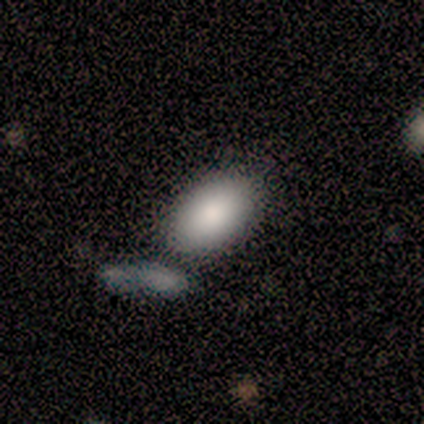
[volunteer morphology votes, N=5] A smooth galaxy with no disk features (100%) that is in between round and cigar-shaped (100%). Merging: none (80%).